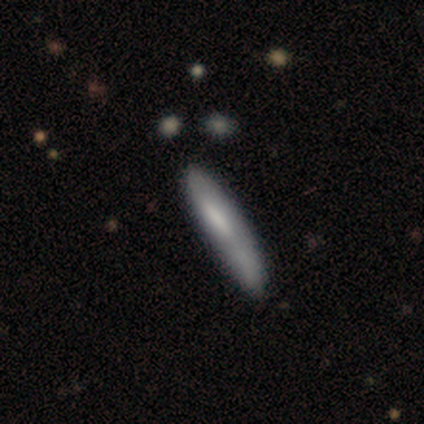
Q: Smooth or featured?
A: smooth (75%); runner-up: featured or disk (25%)
Q: How rounded?
A: cigar-shaped (100%)
Q: Merging?
A: none (50%); runner-up: minor disturbance (25%)